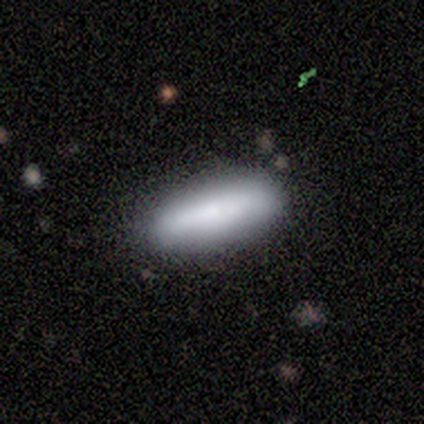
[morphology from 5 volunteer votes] Smooth or featured? 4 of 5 (80%) said smooth. How rounded? 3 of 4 (75%) said in between. Merging? 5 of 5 (100%) said none.